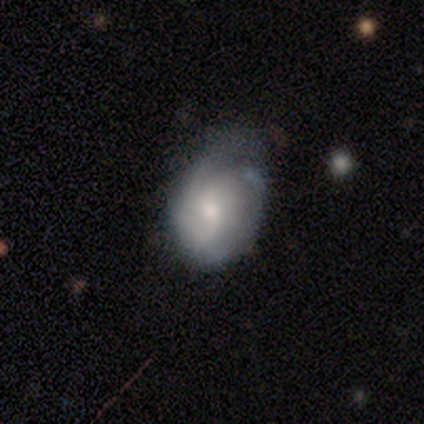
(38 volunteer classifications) Q: Smooth or featured?
A: smooth (50%); runner-up: featured or disk (47%)
Q: How rounded?
A: round (47%); tied with: in between (47%)
Q: Merging?
A: minor disturbance (54%); runner-up: none (27%)